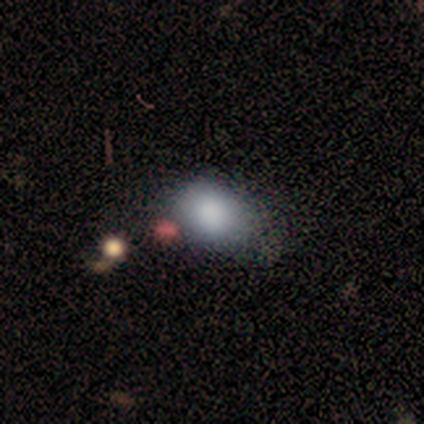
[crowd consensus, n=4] smooth_or_featured: smooth (p=1.00)
how_rounded: round (p=0.50) [tied with: in between p=0.50]
merging: none (p=0.75) [alt: major disturbance p=0.25]